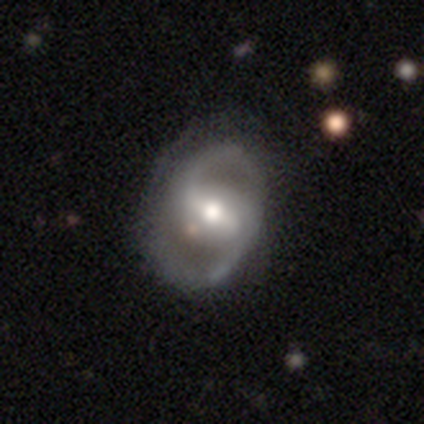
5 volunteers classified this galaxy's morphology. Smooth or featured? 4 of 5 (80%) said featured or disk. Edge-on disk? 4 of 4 (100%) said no. Bar? 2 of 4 (50%, tied with weak) said strong. Spiral arms? 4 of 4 (100%) said yes. Spiral winding? 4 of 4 (100%) said loose. Spiral arm count? 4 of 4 (100%) said 2. Bulge size? 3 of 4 (75%) said moderate. Merging? 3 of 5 (60%) said none.